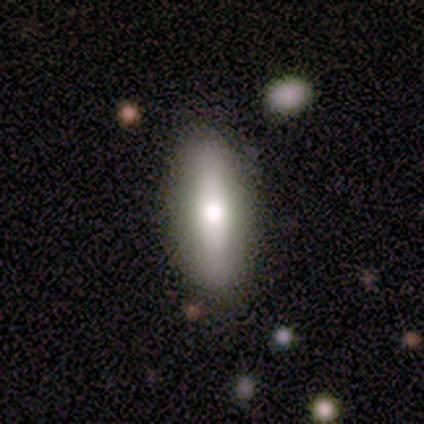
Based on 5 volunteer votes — This is likely a featured or disk galaxy (60%). It is clearly viewed edge-on (100%). Edge-on bulge: clearly rounded (100%). Merging: clearly none (100%).